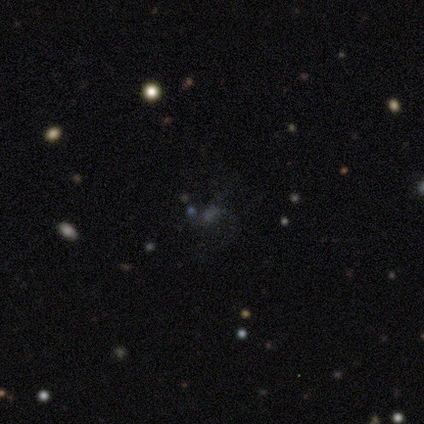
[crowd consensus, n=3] A star or artifact, not a galaxy (67%).

Vote fractions:
- Smooth or featured? star or artifact: 67% / featured or disk: 33% / smooth: 0%